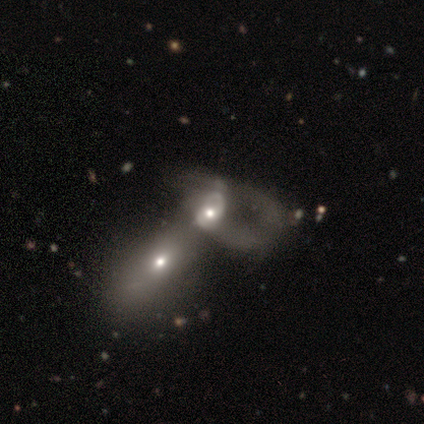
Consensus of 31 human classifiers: This appears to be a featured or disk galaxy (74%) with no bar (78%), no spiral arms (61%) and a moderate central bulge (70%). Merging: merger (83%).